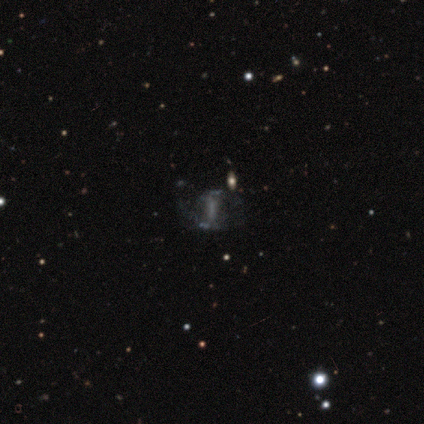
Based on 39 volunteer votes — Smooth or featured: featured or disk — 51% (star or artifact — 31%)
Edge-on disk: no — 100%
Bar: strong — 45% (tied with no — 45%)
Spiral arms: no — 55% (yes — 45%)
Bulge size: none — 65% (moderate — 25%)
Merging: none — 44% (major disturbance — 33%)